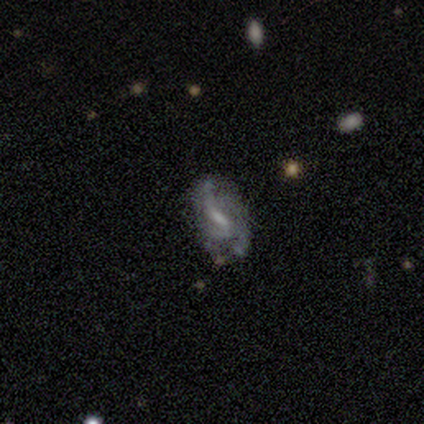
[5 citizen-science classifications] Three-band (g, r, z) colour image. It shows a featured or disk galaxy (80%) with a weak bar (75%), medium (75%) spiral arms (100%) and a moderate central bulge (100%). Merging: none (80%).